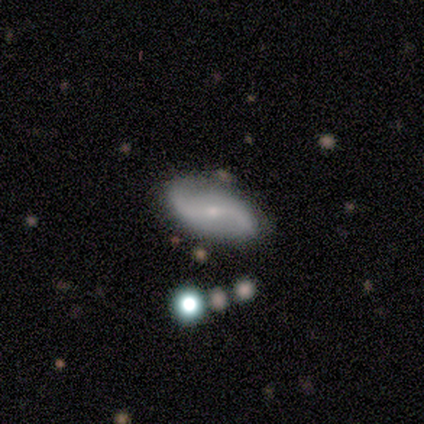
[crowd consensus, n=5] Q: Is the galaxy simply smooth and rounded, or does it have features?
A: featured or disk — 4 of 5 (80%).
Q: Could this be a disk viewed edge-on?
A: no — 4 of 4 (100%).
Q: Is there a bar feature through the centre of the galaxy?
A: weak — 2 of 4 (50%, tied with no).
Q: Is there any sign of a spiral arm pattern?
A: yes — 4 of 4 (100%).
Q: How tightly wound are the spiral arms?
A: loose — 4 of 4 (100%).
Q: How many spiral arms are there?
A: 2 — 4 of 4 (100%).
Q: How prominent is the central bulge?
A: small — 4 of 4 (100%).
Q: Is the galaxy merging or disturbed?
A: none — 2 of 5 (40%, tied with merger).